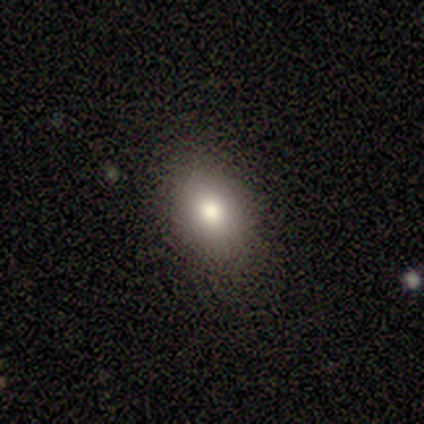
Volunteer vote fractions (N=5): A smooth galaxy with no disk features (80%) that is in between round and cigar-shaped (100%). Merging: none (60%).